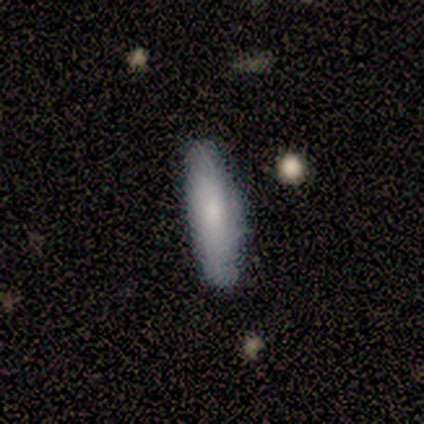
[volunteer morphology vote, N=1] Overall: smooth (100%). How rounded: cigar-shaped (100%). Merging: minor disturbance (100%).